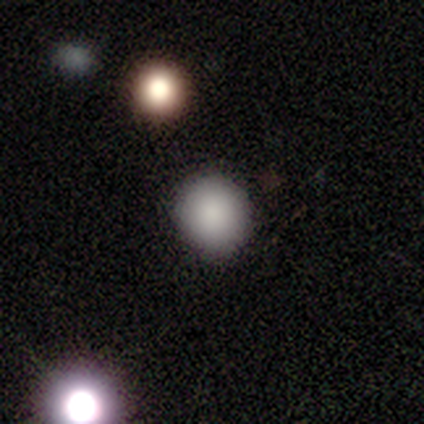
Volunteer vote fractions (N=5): Smooth or featured?
  - smooth: 80% *
  - star or artifact: 20%
  - featured or disk: 0%
How rounded?
  - round: 50% * (tied)
  - in between: 50% * (tied)
  - cigar-shaped: 0%
Merging?
  - none: 100% *
  - minor disturbance: 0%
  - major disturbance: 0%
  - merger: 0%